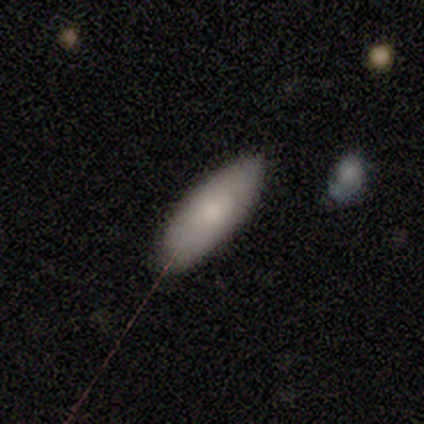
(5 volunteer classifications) Smooth or featured? smooth (80%)
How rounded? cigar-shaped (75%)
Merging? minor disturbance (60%)